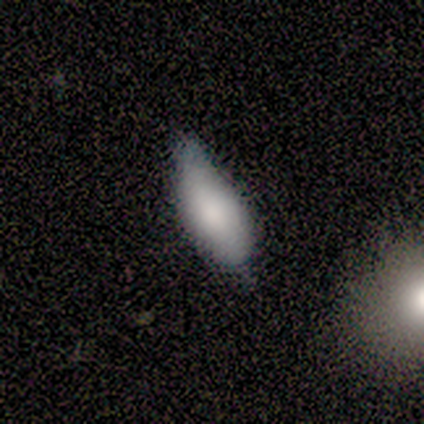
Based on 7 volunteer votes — Smooth or featured? 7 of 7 (100%) said smooth. How rounded? 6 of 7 (86%) said in between. Merging? 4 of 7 (57%) said none.